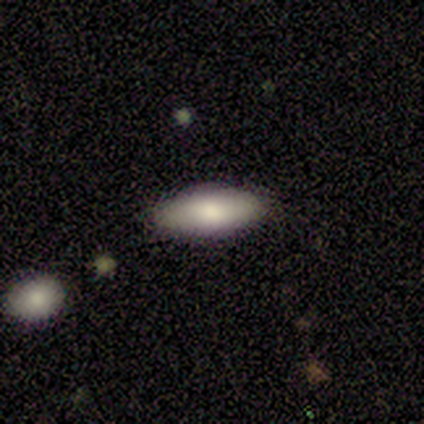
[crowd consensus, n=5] Smooth or featured? 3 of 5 (60%) said smooth. How rounded? 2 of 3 (67%) said cigar-shaped. Merging? 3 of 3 (100%) said none.